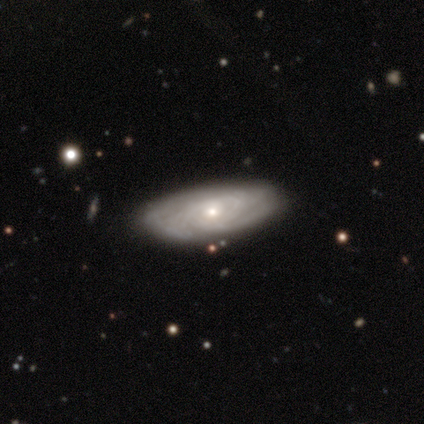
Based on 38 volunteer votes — Morphology: type=featured or disk (82%); edge-on=no (90%); bar=no (71%); spiral arms=yes (93%); winding=tight (62%); arm count=can't tell (73%); bulge=small (79%); merging=none (69%).